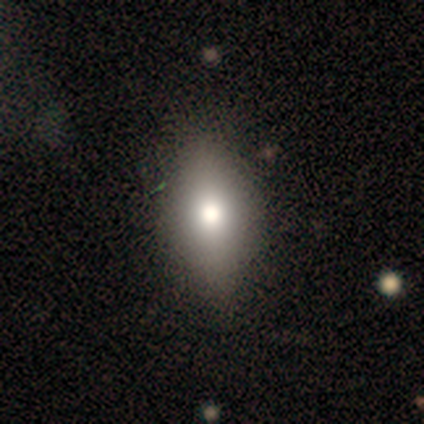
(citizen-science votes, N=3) Smooth or featured: smooth — 100%
How rounded: in between — 67% (round — 33%)
Merging: none — 100%